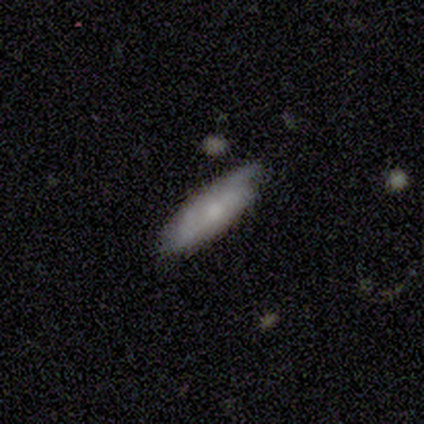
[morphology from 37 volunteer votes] Overall: smooth (49%; featured or disk 46%). How rounded: in between (56%; cigar-shaped 44%). Merging: none (77%).